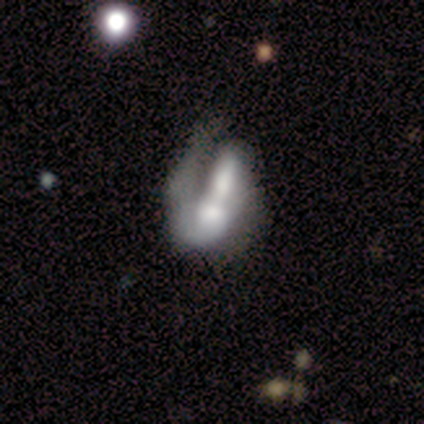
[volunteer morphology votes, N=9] This is possibly a featured or disk galaxy (56%). It is clearly not viewed edge-on (100%). Bar: marginally strong (40%, tied with no). Spiral arm pattern: clearly yes (80%). Spiral arm count: likely 1 (75%). Spiral winding: possibly tight (50%, tied with medium). Central bulge: marginally moderate (40%, tied with small). Merging: marginally merger (44%).